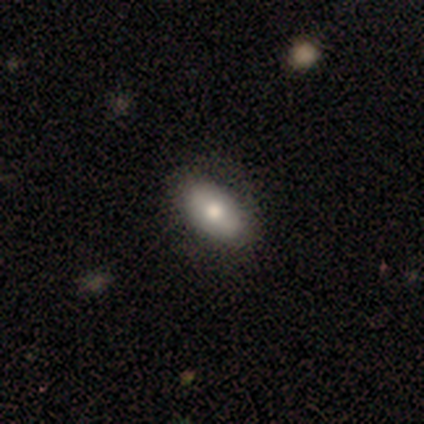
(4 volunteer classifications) A smooth galaxy with no disk features (100%) that is in between round and cigar-shaped (75%). Merging: none (75%).